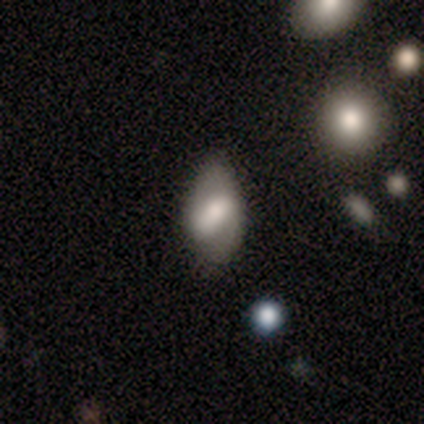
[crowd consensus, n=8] Smooth or featured?
  - smooth: 75% *
  - featured or disk: 25%
  - star or artifact: 0%
How rounded?
  - in between: 100% *
  - round: 0%
  - cigar-shaped: 0%
Merging?
  - none: 75% *
  - minor disturbance: 12%
  - merger: 12%
  - major disturbance: 0%